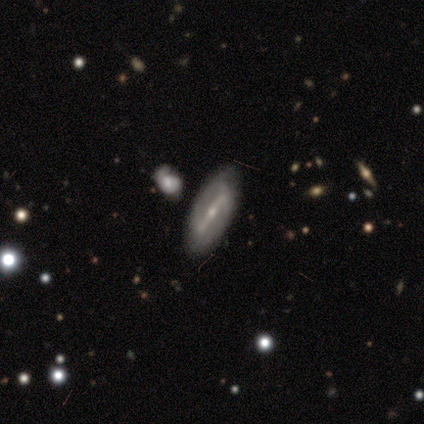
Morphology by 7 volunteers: A featured or disk galaxy (71%) with a strong bar (100%), no spiral arms (75%) and a small central bulge (100%).

Vote fractions:
- Smooth or featured? featured or disk: 71% / smooth: 29% / star or artifact: 0%
- Edge-on disk? no: 80% / yes: 20%
- Bar? strong: 100% / weak: 0% / no: 0%
- Spiral arms? no: 75% / yes: 25%
- Bulge size? small: 100% / dominant: 0% / large: 0% / moderate: 0% / none: 0%
- Merging? none: 57% / merger: 29% / minor disturbance: 14% / major disturbance: 0%